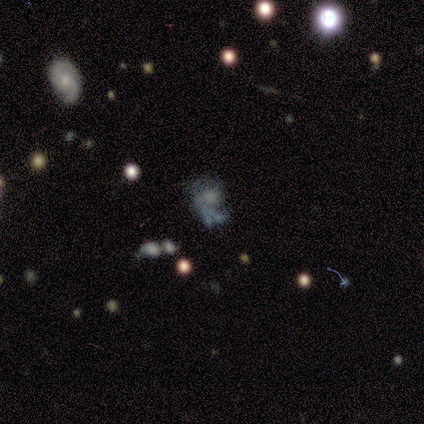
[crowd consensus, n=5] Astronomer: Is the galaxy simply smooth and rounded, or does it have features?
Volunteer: featured or disk — 60% (runner-up: star or artifact, 40%).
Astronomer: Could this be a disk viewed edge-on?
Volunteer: no — 100%.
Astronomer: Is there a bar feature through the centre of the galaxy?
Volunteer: no — 100%.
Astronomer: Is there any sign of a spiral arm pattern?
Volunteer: no — 67%.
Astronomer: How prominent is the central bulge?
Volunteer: none — 67%.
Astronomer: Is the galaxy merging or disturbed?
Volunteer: major disturbance — 100%.